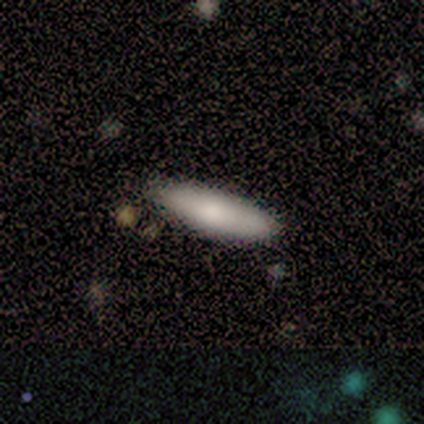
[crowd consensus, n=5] Smooth or featured? 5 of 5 (100%) said smooth. How rounded? 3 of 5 (60%) said in between. Merging? 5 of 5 (100%) said none.